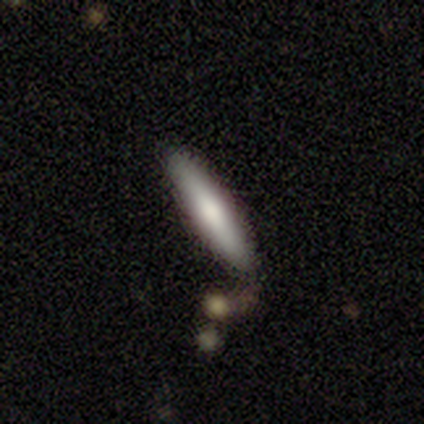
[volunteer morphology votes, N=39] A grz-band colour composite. It shows a smooth galaxy with no disk features (72%) that is cigar-shaped (82%). Merging: none (32%).